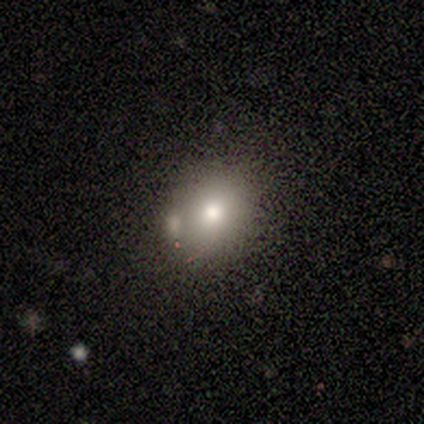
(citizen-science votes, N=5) Overall: smooth (60%; featured or disk 20%). How rounded: round (100%). Merging: none (100%).